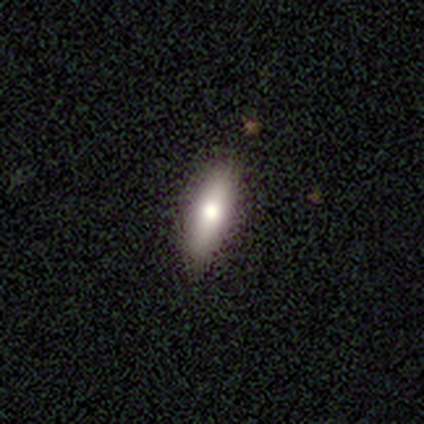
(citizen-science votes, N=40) A smooth galaxy with no disk features (75%) that is cigar-shaped (53%). Merging: none (89%).